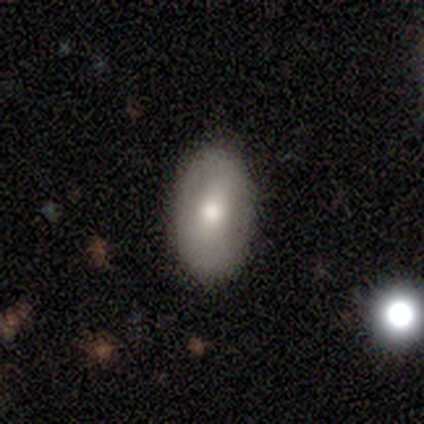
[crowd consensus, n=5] Volunteers were most divided on "bulge size" (2-way tie): large: 50%, moderate: 50%, dominant: 0%, small: 0%, none: 0%; "merging" (2-way tie): none: 40%, minor disturbance: 40%, major disturbance: 20%, merger: 0%. More confident: bar — no (100%); spiral arms — no (100%); edge-on disk — no (67%); smooth or featured — featured or disk (60%).